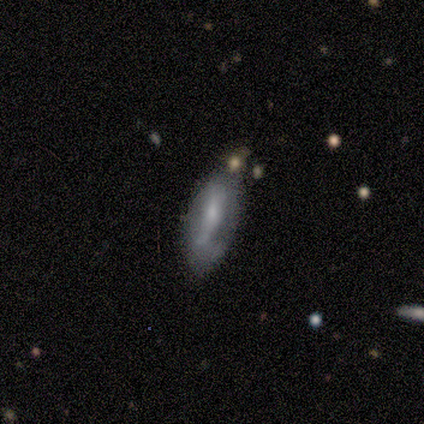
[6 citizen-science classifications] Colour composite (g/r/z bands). It shows a smooth galaxy with no disk features (83%) that is in between round and cigar-shaped (80%). Merging: none (67%).